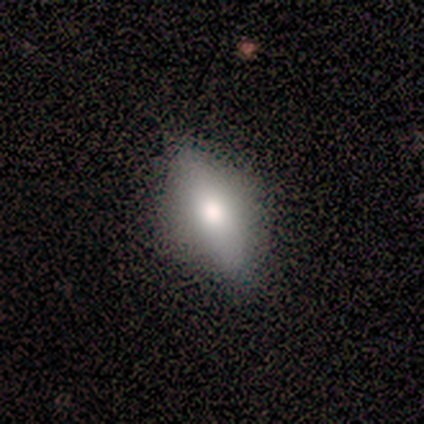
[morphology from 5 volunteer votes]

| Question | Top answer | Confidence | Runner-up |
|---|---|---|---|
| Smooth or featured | smooth | 60% | featured or disk (40%) |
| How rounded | round | 33% | tied: in between (33%), cigar-shaped (33%) |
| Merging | none | 40% | tied: major disturbance (40%) |